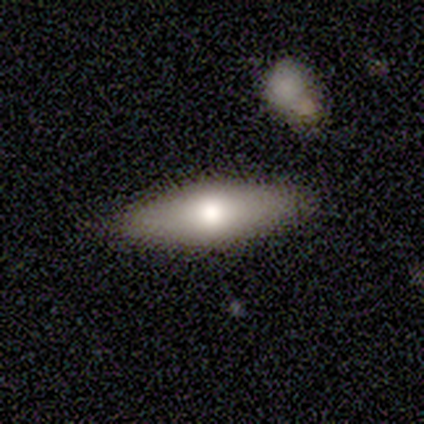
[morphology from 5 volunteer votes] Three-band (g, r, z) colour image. It shows a smooth galaxy with no disk features (80%) that is in between round and cigar-shaped (50%, tied with cigar-shaped). Merging: none (80%).